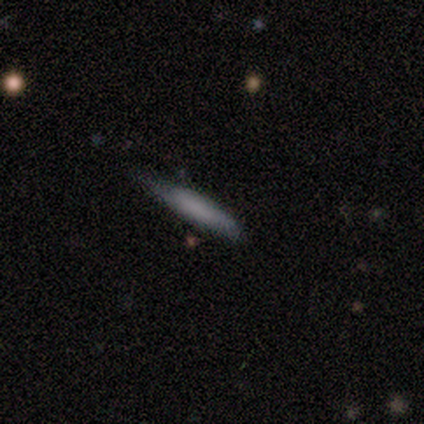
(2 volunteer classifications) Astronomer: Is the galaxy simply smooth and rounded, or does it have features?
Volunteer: smooth — 50%, tied with featured or disk at 50%.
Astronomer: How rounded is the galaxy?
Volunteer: cigar-shaped — 100%.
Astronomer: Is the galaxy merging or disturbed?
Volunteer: none — 100%.